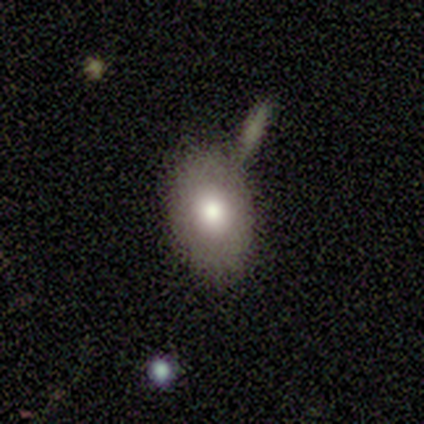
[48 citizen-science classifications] Smooth or featured? 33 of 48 (69%) said smooth. How rounded? 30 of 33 (91%) said in between. Merging? 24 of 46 (52%) said none.